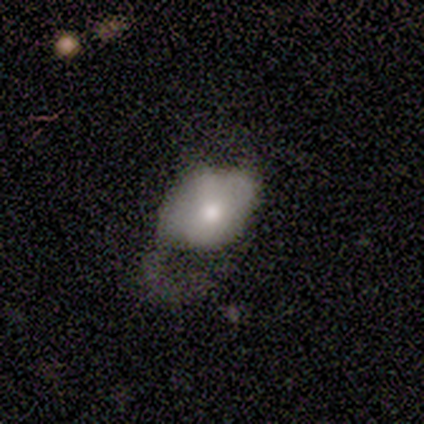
smooth-or-featured: smooth: 80% | featured or disk: 20% | star or artifact: 0%
  how-rounded: in between: 100% | round: 0% | cigar-shaped: 0%
  merging: none: 40% (tied) | major disturbance: 40% (tied) | minor disturbance: 20% | merger: 0%